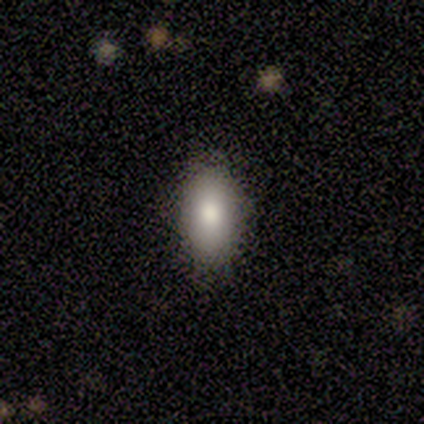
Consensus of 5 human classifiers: Smooth or featured: smooth — 60% (featured or disk — 20%)
How rounded: in between — 67% (round — 33%)
Merging: none — 75% (minor disturbance — 25%)